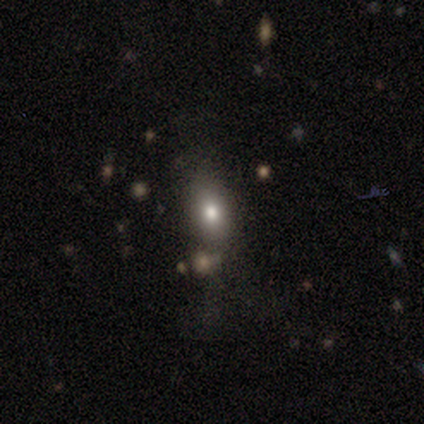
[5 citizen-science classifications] Smooth or featured?
  - smooth: 40% * (tied)
  - featured or disk: 40% * (tied)
  - star or artifact: 20%
How rounded?
  - round: 50% * (tied)
  - in between: 50% * (tied)
  - cigar-shaped: 0%
Merging?
  - none: 50% * (tied)
  - major disturbance: 50% * (tied)
  - minor disturbance: 0%
  - merger: 0%